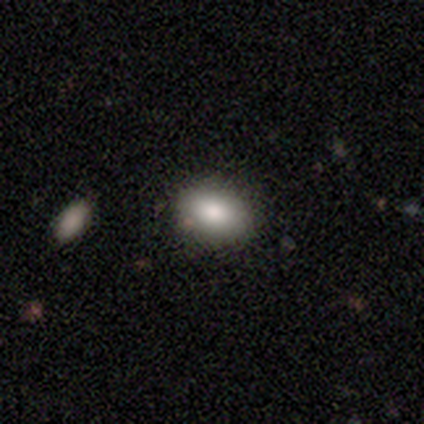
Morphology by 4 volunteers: Overall: smooth (100%). How rounded: in between (75%). Merging: none (100%).